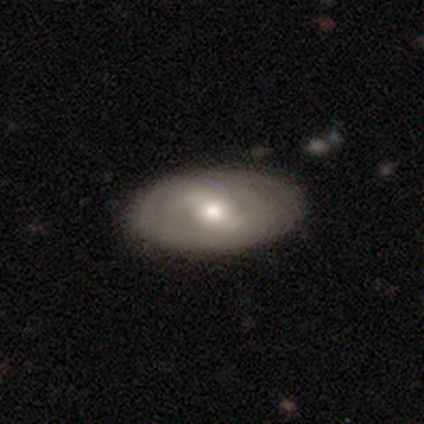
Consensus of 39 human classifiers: A smooth galaxy with no disk features (51%) that is in between round and cigar-shaped (85%).

Vote fractions:
- Smooth or featured? smooth: 51% / featured or disk: 41% / star or artifact: 8%
- How rounded? in between: 85% / round: 10% / cigar-shaped: 5%
- Merging? none: 86% / minor disturbance: 11% / major disturbance: 3% / merger: 0%